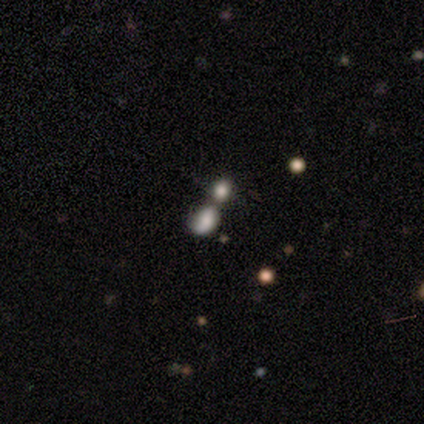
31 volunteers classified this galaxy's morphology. smooth-or-featured: smooth: 71% | star or artifact: 19% | featured or disk: 10%
  how-rounded: in between: 95% | round: 5% | cigar-shaped: 0%
  merging: merger: 72% | none: 16% | major disturbance: 8% | minor disturbance: 4%